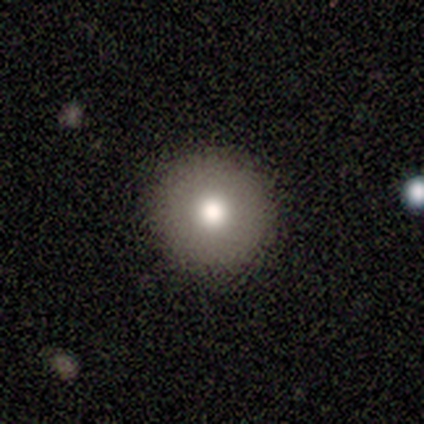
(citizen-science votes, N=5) A smooth galaxy with no disk features (100%) that is round (100%). Merging: none (100%).